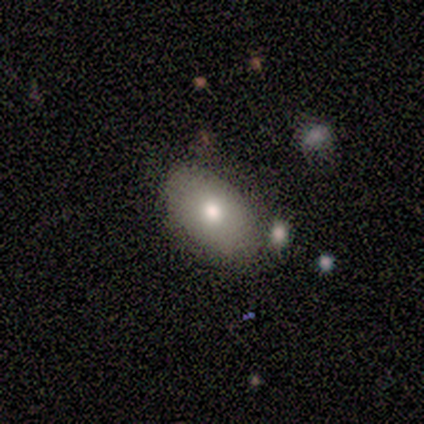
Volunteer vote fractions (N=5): Q: Smooth or featured?
A: smooth (80%); runner-up: star or artifact (20%)
Q: How rounded?
A: in between (75%); runner-up: round (25%)
Q: Merging?
A: none (75%); runner-up: minor disturbance (25%)